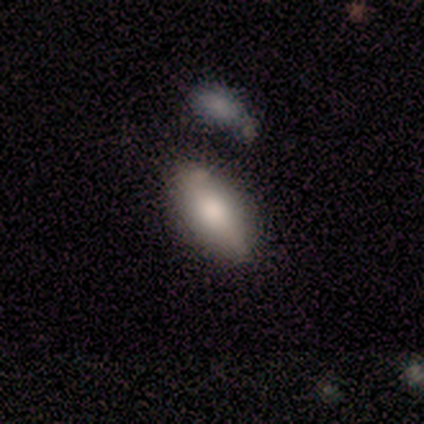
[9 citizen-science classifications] Smooth or featured?
  - smooth: 78% *
  - featured or disk: 22%
  - star or artifact: 0%
How rounded?
  - in between: 86% *
  - cigar-shaped: 14%
  - round: 0%
Merging?
  - none: 44% * (tied)
  - minor disturbance: 44% * (tied)
  - merger: 11%
  - major disturbance: 0%